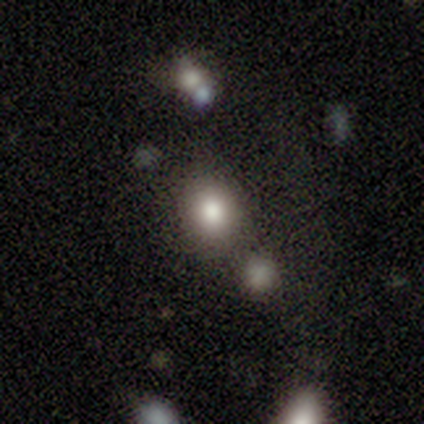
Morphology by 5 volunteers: A smooth galaxy with no disk features (80%) that is round (100%). Merging: none (60%).